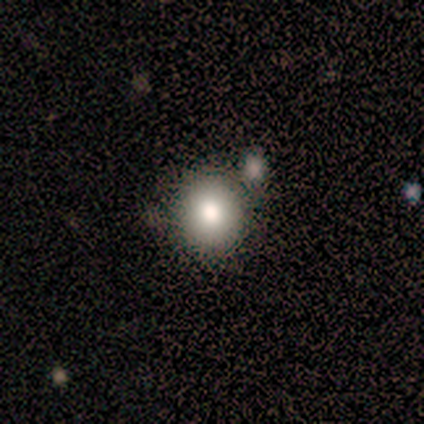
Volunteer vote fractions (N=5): Smooth or featured? smooth (100%)
How rounded? round (100%)
Merging? none (60%)